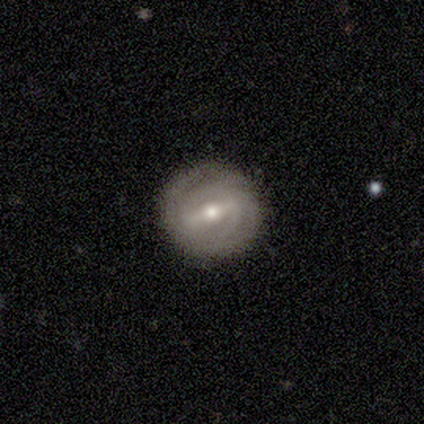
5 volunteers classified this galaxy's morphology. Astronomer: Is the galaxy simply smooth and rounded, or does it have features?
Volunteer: featured or disk — 80%.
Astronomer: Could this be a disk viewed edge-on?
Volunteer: no — 100%.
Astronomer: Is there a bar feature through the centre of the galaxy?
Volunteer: strong — 100%.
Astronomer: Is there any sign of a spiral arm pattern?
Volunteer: yes — 100%.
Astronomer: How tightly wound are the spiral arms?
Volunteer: tight — 50%, tied with medium at 50%.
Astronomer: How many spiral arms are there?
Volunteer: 2 — 100%.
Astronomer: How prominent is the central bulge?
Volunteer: moderate — 50%, tied with small at 50%.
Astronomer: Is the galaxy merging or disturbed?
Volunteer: none — 100%.